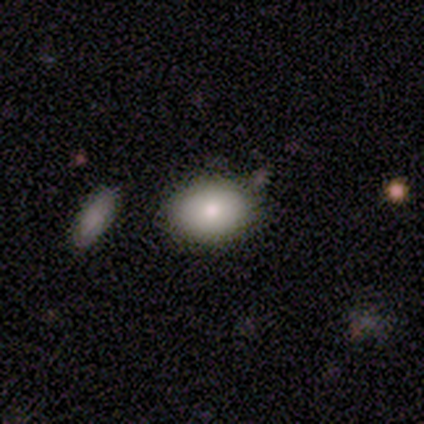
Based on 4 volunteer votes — This appears to be a smooth galaxy with no disk features (75%) that is in between round and cigar-shaped (100%). Merging: none (100%).